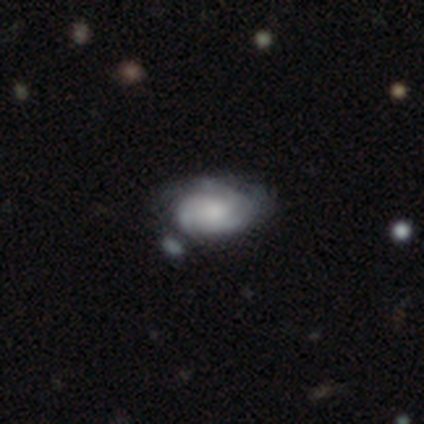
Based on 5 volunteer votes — Smooth or featured?
  - featured or disk: 60% *
  - smooth: 40%
  - star or artifact: 0%
Edge-on disk?
  - no: 100% *
  - yes: 0%
Bar?
  - no: 100% *
  - strong: 0%
  - weak: 0%
Spiral arms?
  - yes: 67% *
  - no: 33%
Spiral winding?
  - tight: 50% * (tied)
  - loose: 50% * (tied)
  - medium: 0%
Spiral arm count?
  - 3: 50% * (tied)
  - can't tell: 50% * (tied)
  - 1: 0%
  - 2: 0%
  - 4: 0%
  - more than 4: 0%
Bulge size?
  - none: 67% *
  - moderate: 33%
  - dominant: 0%
  - large: 0%
  - small: 0%
Merging?
  - none: 60% *
  - minor disturbance: 20%
  - merger: 20%
  - major disturbance: 0%